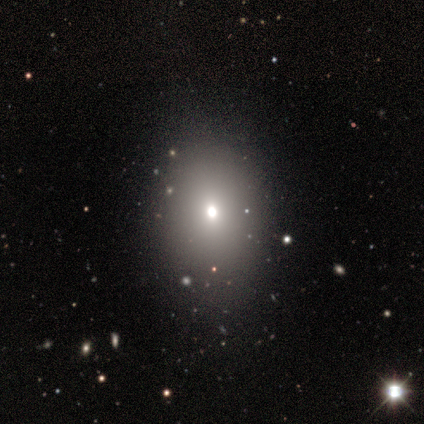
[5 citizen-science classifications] smooth-or-featured: smooth: 100% | featured or disk: 0% | star or artifact: 0%
  how-rounded: in between: 60% | round: 40% | cigar-shaped: 0%
  merging: none: 80% | minor disturbance: 20% | major disturbance: 0% | merger: 0%